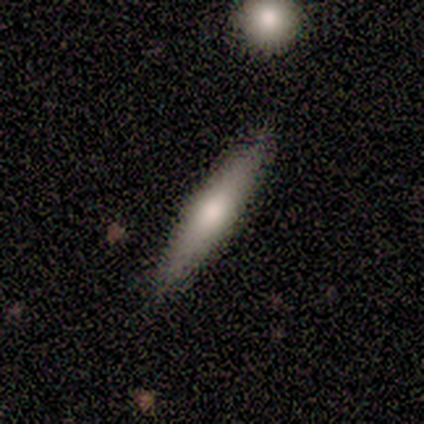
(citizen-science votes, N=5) smooth_or_featured: smooth (p=0.80) [alt: featured or disk p=0.20]
how_rounded: cigar-shaped (p=0.75) [alt: in between p=0.25]
merging: none (p=1.00)